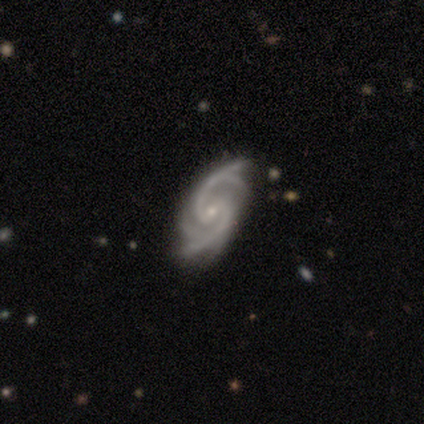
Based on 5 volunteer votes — featured or disk 100%, smooth 0%, star or artifact 0%. Down the decision tree: edge-on disk — no (100%); bar — weak (80%); spiral arms — yes (80%); spiral arm count — 2 (50%); spiral winding — medium (75%); bulge size — small (80%); merging — none (80%).